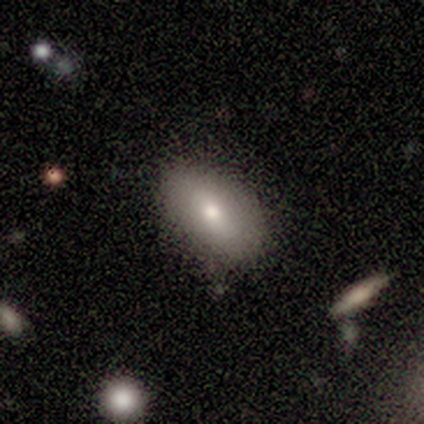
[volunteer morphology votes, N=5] Smooth or featured?
  - smooth: 40% * (tied)
  - featured or disk: 40% * (tied)
  - star or artifact: 20%
How rounded?
  - in between: 100% *
  - round: 0%
  - cigar-shaped: 0%
Merging?
  - none: 75% *
  - minor disturbance: 25%
  - major disturbance: 0%
  - merger: 0%